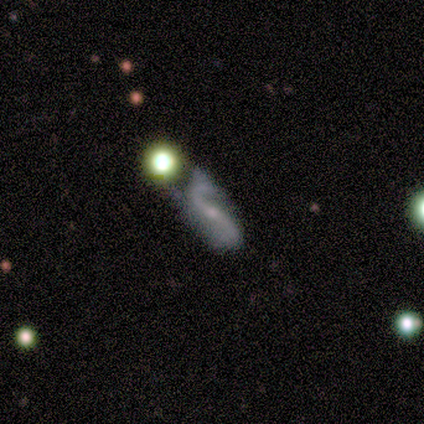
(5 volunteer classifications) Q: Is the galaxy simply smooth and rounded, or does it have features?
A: featured or disk — 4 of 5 (80%).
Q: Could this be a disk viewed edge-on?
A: no — 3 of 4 (75%).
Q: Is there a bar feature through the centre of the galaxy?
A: strong — 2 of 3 (67%).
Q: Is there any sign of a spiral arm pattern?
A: yes — 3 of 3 (100%).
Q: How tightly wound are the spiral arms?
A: loose — 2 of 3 (67%).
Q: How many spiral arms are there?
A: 2 — 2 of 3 (67%).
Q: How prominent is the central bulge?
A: small — 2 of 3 (67%).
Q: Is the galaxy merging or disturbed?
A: none — 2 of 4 (50%, tied with major disturbance).